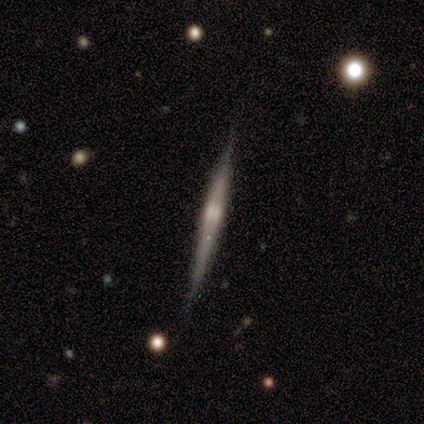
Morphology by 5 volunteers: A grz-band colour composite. It shows a featured or disk galaxy (80%) viewed edge-on (100%) with a rounded central bulge (100%). Merging: none (100%).